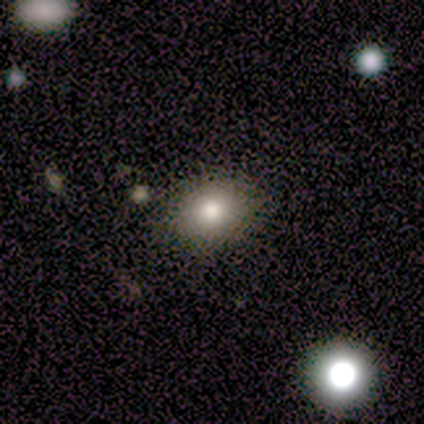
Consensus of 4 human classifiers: Smooth or featured?
  - smooth: 50% *
  - featured or disk: 25%
  - star or artifact: 25%
How rounded?
  - in between: 100% *
  - round: 0%
  - cigar-shaped: 0%
Merging?
  - none: 100% *
  - minor disturbance: 0%
  - major disturbance: 0%
  - merger: 0%